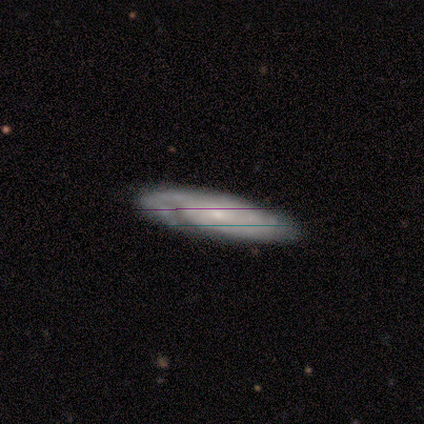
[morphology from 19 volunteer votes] featured or disk 84%, smooth 11%, star or artifact 5%. Down the decision tree: edge-on disk — no (88%); bar — no (79%); spiral arms — yes (93%); spiral arm count — can't tell (69%); spiral winding — tight (62%); bulge size — small (71%); merging — none (78%).